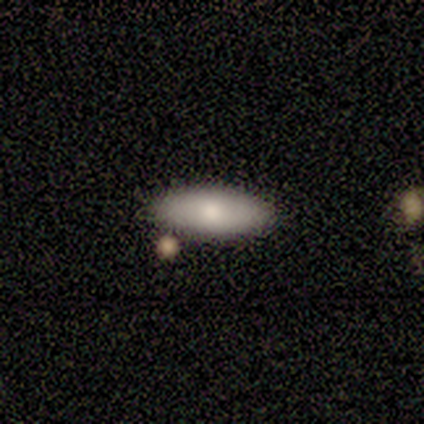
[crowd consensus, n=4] Smooth or featured: smooth — 100%
How rounded: in between — 50% (tied with cigar-shaped — 50%)
Merging: none — 75% (major disturbance — 25%)